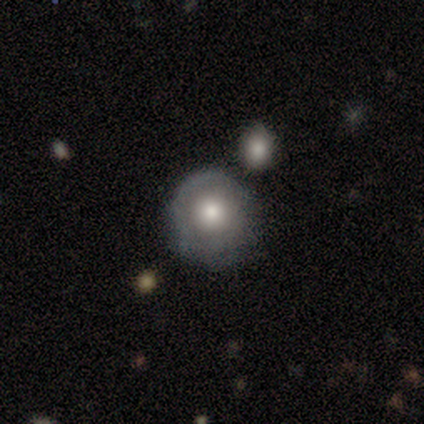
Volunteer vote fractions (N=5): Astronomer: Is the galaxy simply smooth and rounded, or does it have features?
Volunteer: featured or disk — 80%.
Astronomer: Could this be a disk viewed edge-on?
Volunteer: no — 100%.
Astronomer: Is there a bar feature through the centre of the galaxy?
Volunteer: no — 100%.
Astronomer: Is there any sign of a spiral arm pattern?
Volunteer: no — 75%.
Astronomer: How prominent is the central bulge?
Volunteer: moderate — 100%.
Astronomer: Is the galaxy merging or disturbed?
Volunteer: none — 80%.